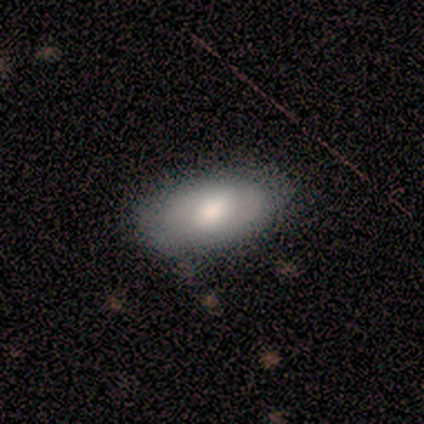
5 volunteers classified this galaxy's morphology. A smooth galaxy with no disk features (80%) that is in between round and cigar-shaped (100%).

Vote fractions:
- Smooth or featured? smooth: 80% / featured or disk: 20% / star or artifact: 0%
- How rounded? in between: 100% / round: 0% / cigar-shaped: 0%
- Merging? none: 100% / minor disturbance: 0% / major disturbance: 0% / merger: 0%